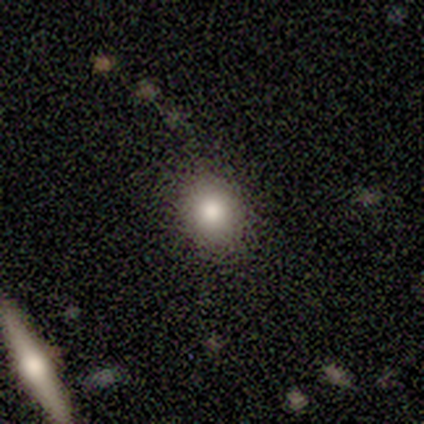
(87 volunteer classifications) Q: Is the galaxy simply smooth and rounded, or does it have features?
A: smooth — 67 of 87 (77%).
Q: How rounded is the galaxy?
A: round — 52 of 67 (78%).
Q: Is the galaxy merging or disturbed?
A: none — 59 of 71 (83%).